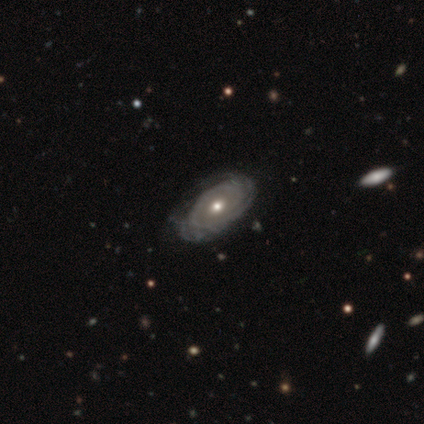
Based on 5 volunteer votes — Overall: featured or disk (60%; smooth 40%). Edge-on disk: no (100%). Bar: no (67%; strong 33%). Spiral arms: yes (100%). Spiral arm count: can't tell (67%; more than 4 33%). Spiral winding: medium (67%; tight 33%). Bulge size: moderate (67%; small 33%). Merging: none (80%).